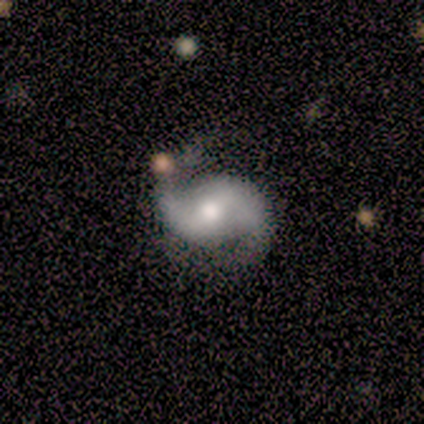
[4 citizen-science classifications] featured or disk 100%, smooth 0%, star or artifact 0%. Down the decision tree: edge-on disk — no (100%); bar — weak (50%); spiral arms — yes (100%); spiral arm count — 2 (100%); spiral winding — medium (75%); bulge size — moderate (100%); merging — none (100%).